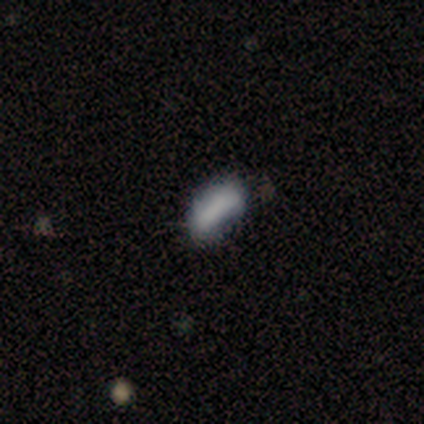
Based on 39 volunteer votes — smooth-or-featured: smooth: 67% | featured or disk: 18% | star or artifact: 15%
  how-rounded: in between: 73% | cigar-shaped: 27% | round: 0%
  merging: none: 52% | minor disturbance: 36% | merger: 9% | major disturbance: 3%